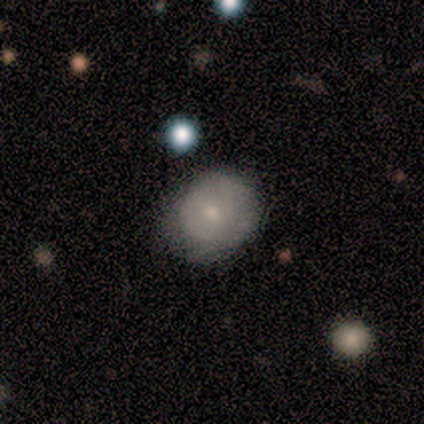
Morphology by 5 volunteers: smooth_or_featured: smooth (p=0.80) [alt: featured or disk p=0.20]
how_rounded: round (p=0.75) [alt: in between p=0.25]
merging: none (p=0.80) [alt: minor disturbance p=0.20]